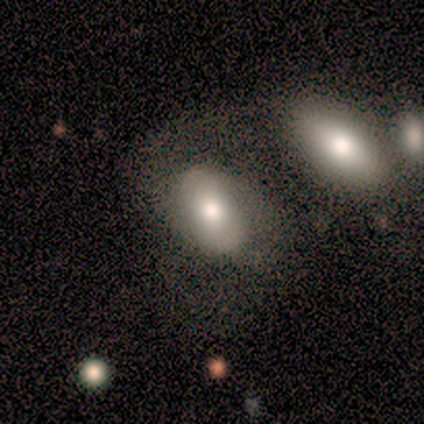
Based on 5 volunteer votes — A smooth galaxy with no disk features (80%) that is in between round and cigar-shaped (100%).

Vote fractions:
- Smooth or featured? smooth: 80% / featured or disk: 20% / star or artifact: 0%
- How rounded? in between: 100% / round: 0% / cigar-shaped: 0%
- Merging? merger: 80% / none: 20% / minor disturbance: 0% / major disturbance: 0%